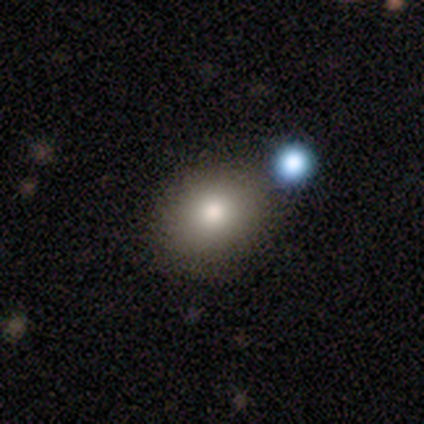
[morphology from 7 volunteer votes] Smooth or featured? smooth (57%)
How rounded? in between (75%)
Merging? none (80%)